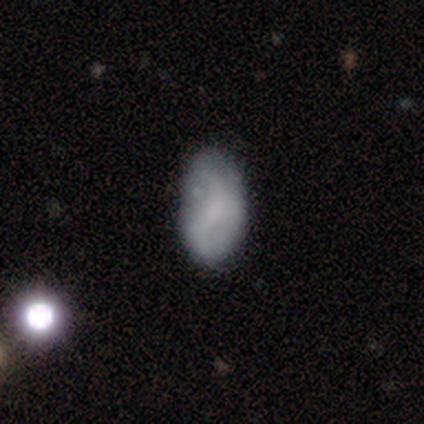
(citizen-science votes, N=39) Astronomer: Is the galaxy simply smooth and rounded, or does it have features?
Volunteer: featured or disk — 54% (runner-up: smooth, 44%).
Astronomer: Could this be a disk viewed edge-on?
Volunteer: no — 95%.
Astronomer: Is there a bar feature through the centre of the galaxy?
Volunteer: no — 60%.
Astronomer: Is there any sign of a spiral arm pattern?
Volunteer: yes — 80%.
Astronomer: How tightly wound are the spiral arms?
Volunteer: loose — 75%.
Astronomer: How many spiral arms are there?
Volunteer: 2 — 69%.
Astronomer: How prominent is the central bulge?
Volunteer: none — 50% (runner-up: small, 40%).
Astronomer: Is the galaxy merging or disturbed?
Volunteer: none — 50% (runner-up: minor disturbance, 29%).